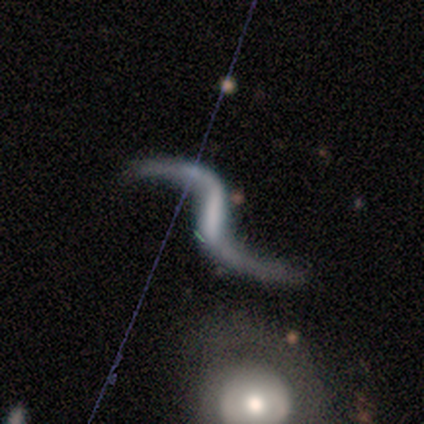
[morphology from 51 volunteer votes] smooth-or-featured: featured or disk: 88% | star or artifact: 10% | smooth: 2%
  disk-edge-on: no: 98% | yes: 2%
    bar: strong: 61% | weak: 34% | no: 5%
    has-spiral-arms: yes: 100% | no: 0%
      spiral-winding: loose: 98% | medium: 2% | tight: 0%
      spiral-arm-count: 2: 95% | 1: 5% | 3: 0% | 4: 0% | more than 4: 0% | can't tell: 0%
    bulge-size: none: 61% | moderate: 16% | small: 11% | large: 9% | dominant: 2%
  merging: none: 74% | minor disturbance: 15% | major disturbance: 7% | merger: 4%